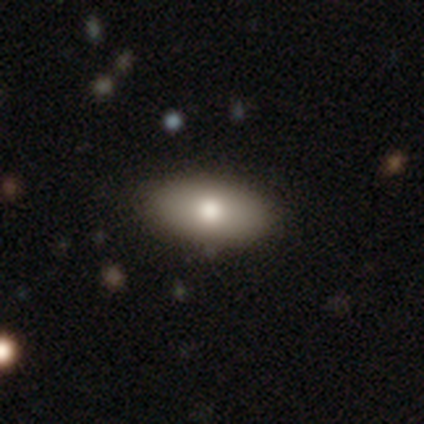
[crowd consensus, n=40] Smooth or featured? 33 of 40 (82%) said smooth. How rounded? 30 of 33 (91%) said in between. Merging? 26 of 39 (67%) said none.